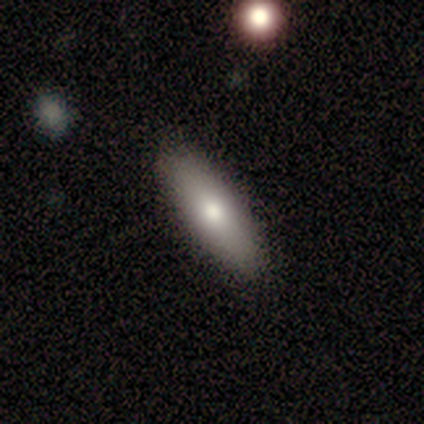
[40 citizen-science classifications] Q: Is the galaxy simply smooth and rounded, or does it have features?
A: smooth — 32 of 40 (80%).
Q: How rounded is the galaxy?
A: in between — 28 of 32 (88%).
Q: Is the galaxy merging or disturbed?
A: none — 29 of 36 (81%).